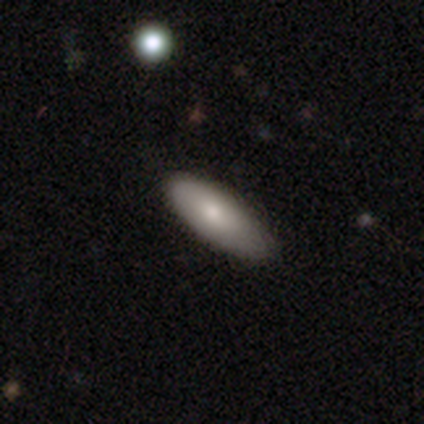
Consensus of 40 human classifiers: Q: Smooth or featured?
A: smooth (82%); runner-up: featured or disk (15%)
Q: How rounded?
A: in between (76%); runner-up: cigar-shaped (24%)
Q: Merging?
A: none (74%); runner-up: minor disturbance (26%)